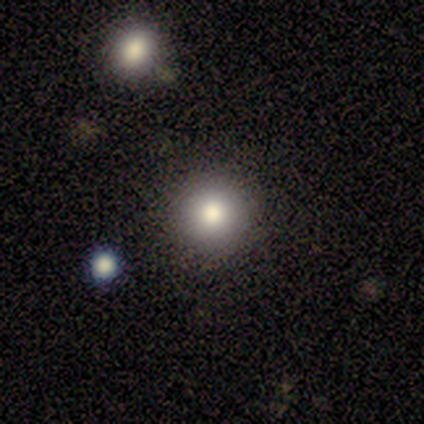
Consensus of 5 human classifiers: Smooth or featured?
  - smooth: 40% * (tied)
  - star or artifact: 40% * (tied)
  - featured or disk: 20%
How rounded?
  - round: 100% *
  - in between: 0%
  - cigar-shaped: 0%
Merging?
  - none: 100% *
  - minor disturbance: 0%
  - major disturbance: 0%
  - merger: 0%